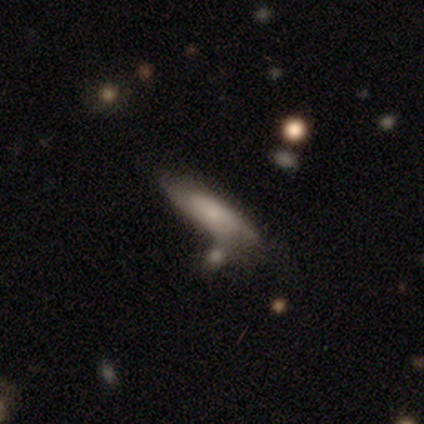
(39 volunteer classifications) Smooth or featured: featured or disk — 49% (smooth — 46%)
Edge-on disk: no — 58% (yes — 42%)
Bar: no — 73% (weak — 27%)
Spiral arms: yes — 73% (no — 27%)
Spiral winding: tight — 38% (tied with loose — 38%)
Spiral arm count: 2 — 50% (can't tell — 38%)
Bulge size: small — 55% (moderate — 27%)
Merging: none — 43% (merger — 32%)